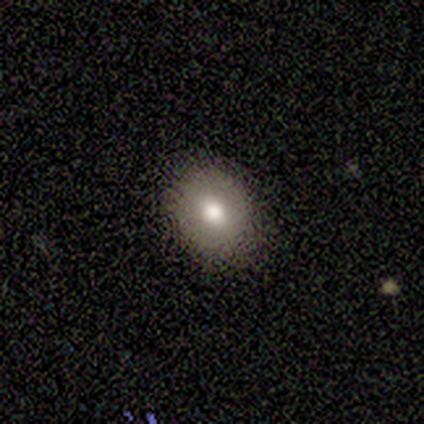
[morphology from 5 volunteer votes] smooth-or-featured: smooth: 100% | featured or disk: 0% | star or artifact: 0%
  how-rounded: in between: 60% | round: 40% | cigar-shaped: 0%
  merging: none: 80% | minor disturbance: 20% | major disturbance: 0% | merger: 0%